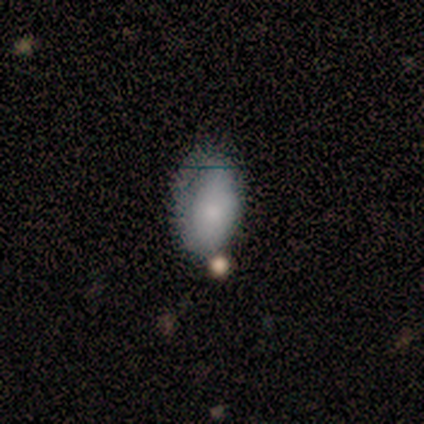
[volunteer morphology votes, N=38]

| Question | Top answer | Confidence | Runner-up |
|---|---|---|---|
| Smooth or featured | smooth | 82% | star or artifact (11%) |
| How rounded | in between | 97% | round (3%) |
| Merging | none | 44% | minor disturbance (35%) |